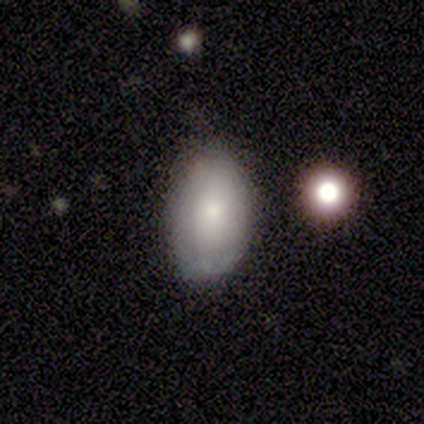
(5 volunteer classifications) This is clearly a smooth galaxy (100%). How rounded: clearly in between (100%). Merging: clearly none (80%).